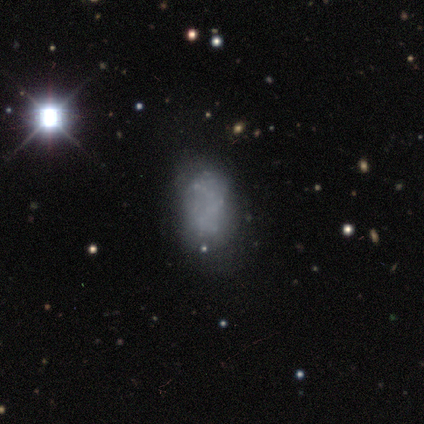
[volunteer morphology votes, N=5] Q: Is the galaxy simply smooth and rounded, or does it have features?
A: smooth — 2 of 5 (40%, tied with featured or disk).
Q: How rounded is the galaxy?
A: in between — 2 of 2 (100%).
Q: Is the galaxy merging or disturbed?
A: none — 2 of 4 (50%, tied with minor disturbance).